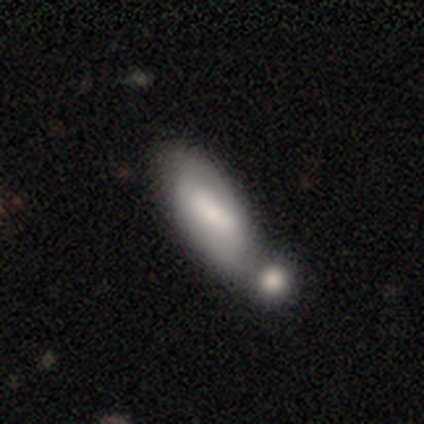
Q: Smooth or featured?
A: smooth (51%); runner-up: featured or disk (43%)
Q: How rounded?
A: in between (84%); runner-up: cigar-shaped (16%)
Q: Merging?
A: merger (54%); runner-up: none (31%)